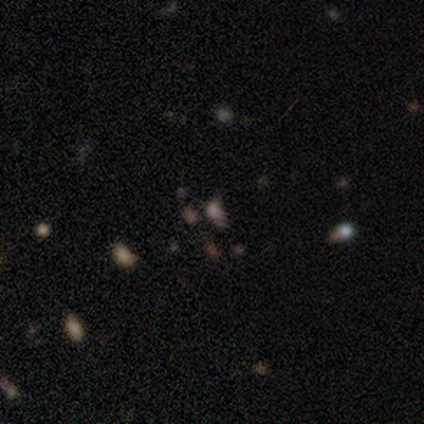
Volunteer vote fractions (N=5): Overall: star or artifact (80%).